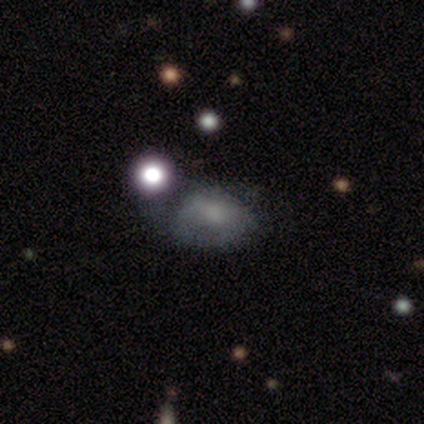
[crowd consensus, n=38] Smooth or featured? featured or disk (50%)
Edge-on disk? no (100%)
Bar? no (68%)
Spiral arms? no (68%)
Bulge size? moderate (53%)
Merging? none (42%)